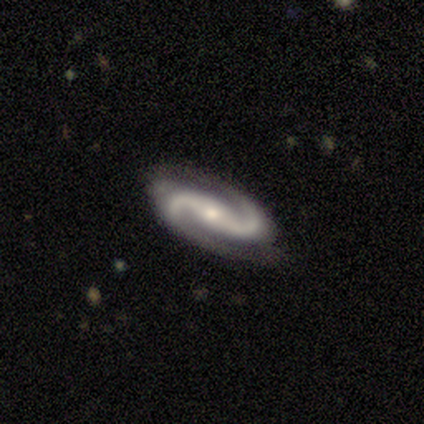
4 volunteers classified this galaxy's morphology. Smooth or featured? 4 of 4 (100%) said featured or disk. Edge-on disk? 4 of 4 (100%) said no. Bar? 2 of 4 (50%, tied with weak) said strong. Spiral arms? 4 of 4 (100%) said yes. Spiral winding? 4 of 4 (100%) said medium. Spiral arm count? 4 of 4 (100%) said 2. Bulge size? 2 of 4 (50%, tied with small) said moderate. Merging? 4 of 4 (100%) said none.